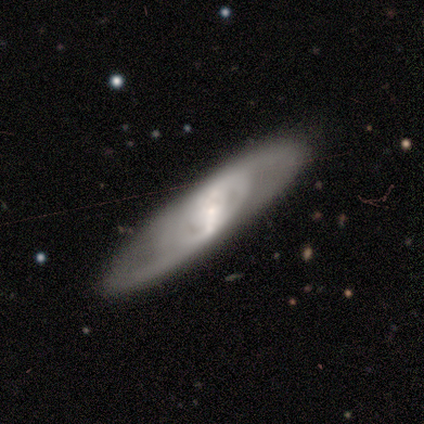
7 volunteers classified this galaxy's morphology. featured or disk 71%, smooth 29%, star or artifact 0%. Down the decision tree: edge-on disk — no (100%); bar — weak (60%); spiral arms — yes (100%); spiral arm count — 2 (60%); spiral winding — tight (60%); bulge size — moderate (60%); merging — none (86%).